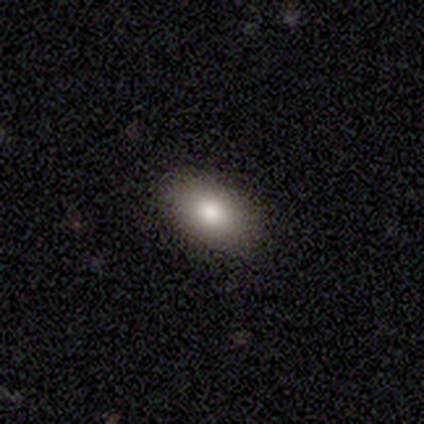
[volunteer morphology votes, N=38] Overall: smooth (66%). How rounded: in between (88%). Merging: none (84%).